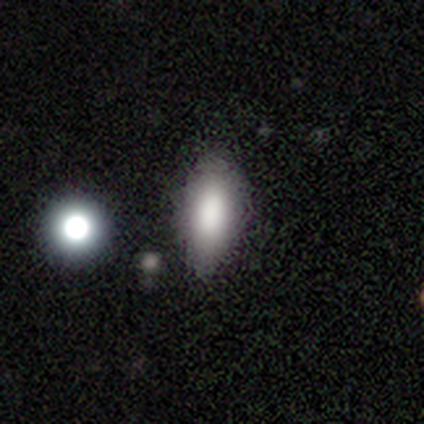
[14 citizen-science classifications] Overall: smooth (86%). How rounded: in between (100%). Merging: none (83%).